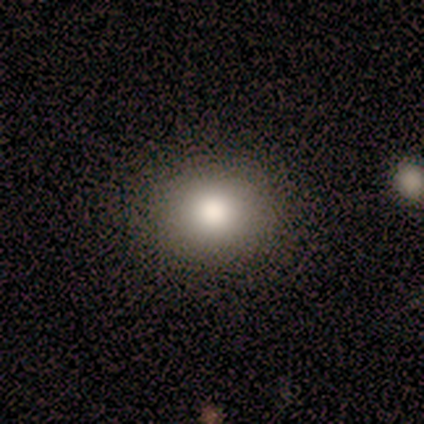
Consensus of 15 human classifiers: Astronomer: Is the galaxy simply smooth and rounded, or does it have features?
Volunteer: smooth — 87%.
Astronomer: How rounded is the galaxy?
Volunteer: in between — 62% (runner-up: round, 38%).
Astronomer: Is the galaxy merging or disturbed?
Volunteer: none — 92%.